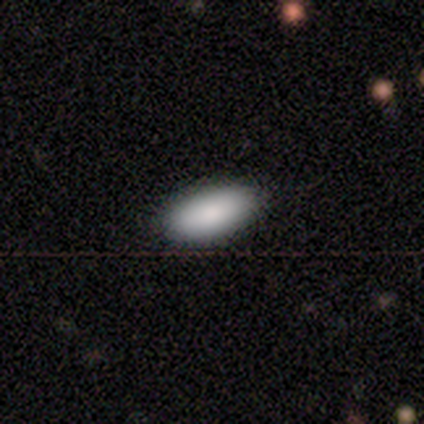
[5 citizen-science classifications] smooth_or_featured: smooth (p=0.80) [alt: featured or disk p=0.20]
how_rounded: in between (p=1.00)
merging: none (p=1.00)